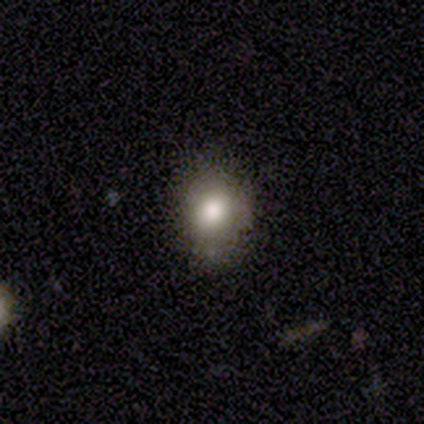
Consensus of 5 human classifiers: Smooth or featured? smooth (100%)
How rounded? round (80%)
Merging? none (100%)